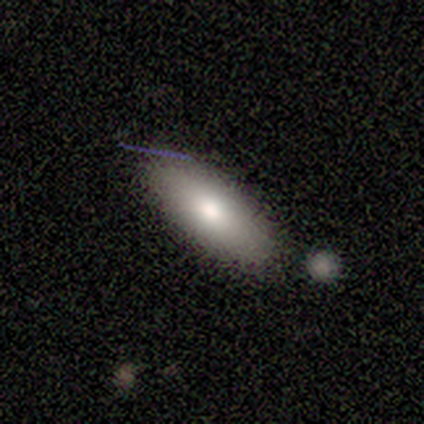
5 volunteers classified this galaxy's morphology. smooth 60%, featured or disk 20%, star or artifact 20%. Down the decision tree: how rounded — in between (67%); merging — none (100%).